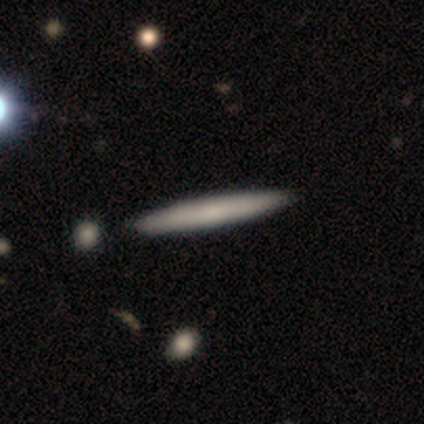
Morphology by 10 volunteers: Smooth or featured? smooth (80%)
How rounded? cigar-shaped (100%)
Merging? none (100%)